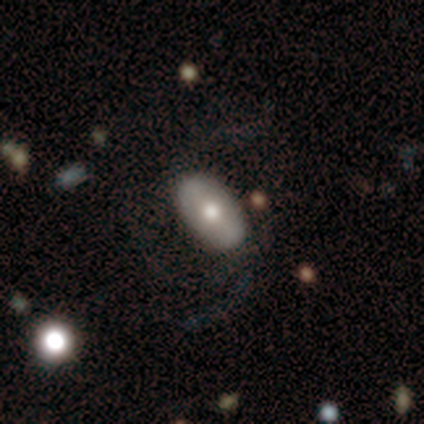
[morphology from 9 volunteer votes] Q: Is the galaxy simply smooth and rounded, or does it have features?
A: smooth — 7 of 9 (78%).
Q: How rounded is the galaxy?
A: in between — 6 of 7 (86%).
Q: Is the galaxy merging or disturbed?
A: none — 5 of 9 (56%).